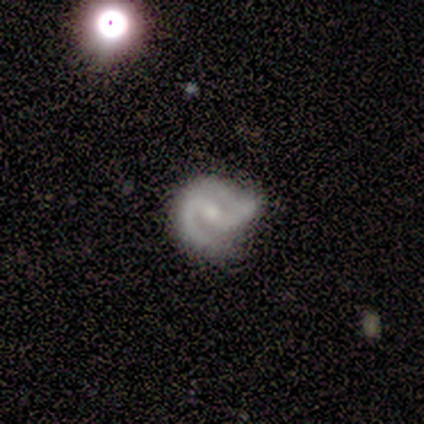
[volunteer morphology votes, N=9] type=featured or disk (89%); edge-on=no (100%); bar=weak (50%); spiral arms=yes (100%); winding=medium (75%); arm count=2 (75%); bulge=moderate (62%); merging=none (44%).